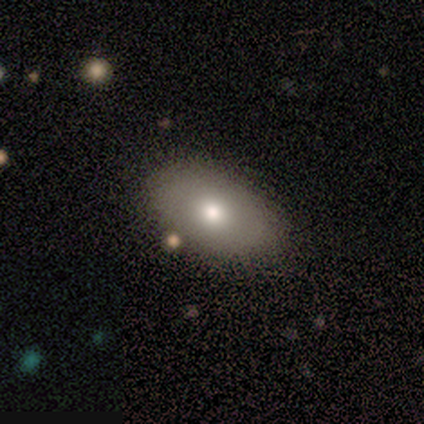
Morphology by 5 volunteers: Smooth or featured: smooth — 100%
How rounded: in between — 80% (round — 20%)
Merging: none — 100%